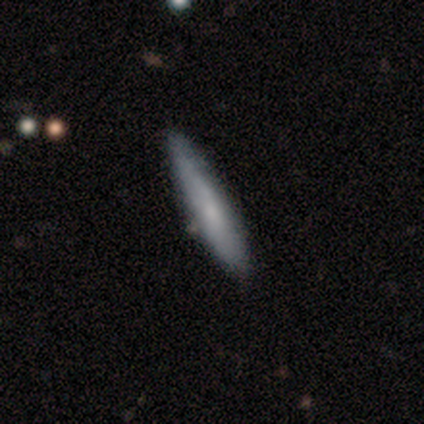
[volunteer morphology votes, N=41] smooth-or-featured: smooth: 66% | featured or disk: 29% | star or artifact: 5%
  how-rounded: cigar-shaped: 89% | in between: 11% | round: 0%
  merging: none: 38% | minor disturbance: 26% | merger: 5% | major disturbance: 0%